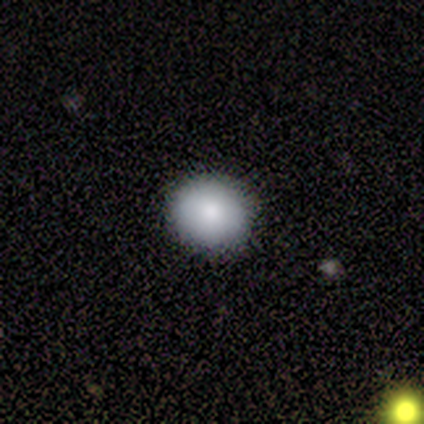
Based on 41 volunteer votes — smooth-or-featured: smooth: 73% | star or artifact: 15% | featured or disk: 12%
  how-rounded: round: 77% | in between: 23% | cigar-shaped: 0%
  merging: none: 94% | minor disturbance: 6% | major disturbance: 0% | merger: 0%